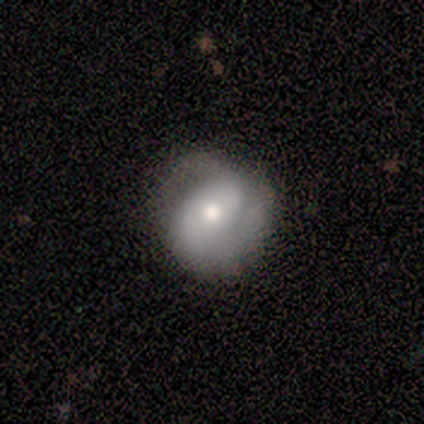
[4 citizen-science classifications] Smooth or featured: featured or disk — 75% (smooth — 25%)
Edge-on disk: no — 100%
Bar: no — 67% (weak — 33%)
Spiral arms: yes — 100%
Spiral winding: medium — 67% (loose — 33%)
Spiral arm count: 2 — 67% (can't tell — 33%)
Bulge size: moderate — 67% (small — 33%)
Merging: none — 75% (minor disturbance — 25%)